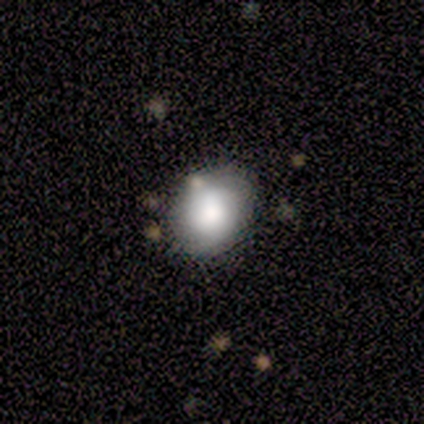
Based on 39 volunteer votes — This appears to be a smooth galaxy with no disk features (74%) that is round (55%). Merging: none (81%).